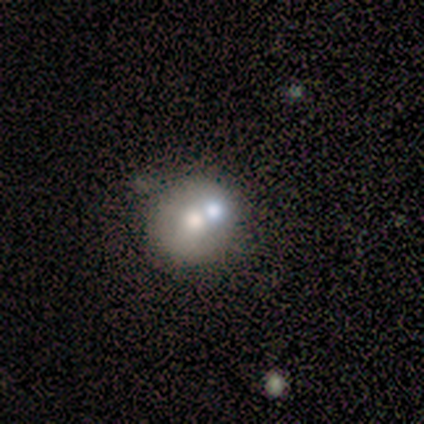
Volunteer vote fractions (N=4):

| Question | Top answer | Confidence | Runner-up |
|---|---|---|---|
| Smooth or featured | smooth | 50% | tied: featured or disk (50%) |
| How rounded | round | 100% | — |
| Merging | none | 50% | minor disturbance (25%) |